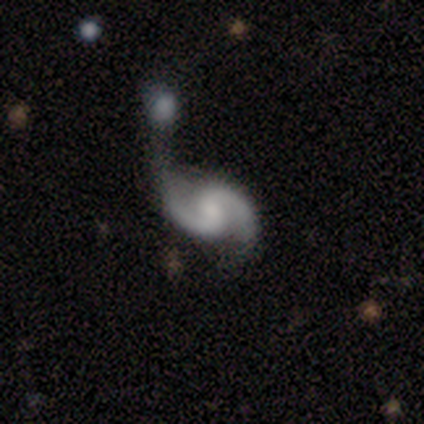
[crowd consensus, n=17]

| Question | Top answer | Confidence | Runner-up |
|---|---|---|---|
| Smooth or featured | featured or disk | 100% | — |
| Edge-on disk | no | 100% | — |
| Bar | no | 53% | weak (29%) |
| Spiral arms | yes | 100% | — |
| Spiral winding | medium | 59% | loose (41%) |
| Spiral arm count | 2 | 94% | 1 (6%) |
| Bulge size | small | 41% | none (29%) |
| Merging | merger | 35% | none (29%) |